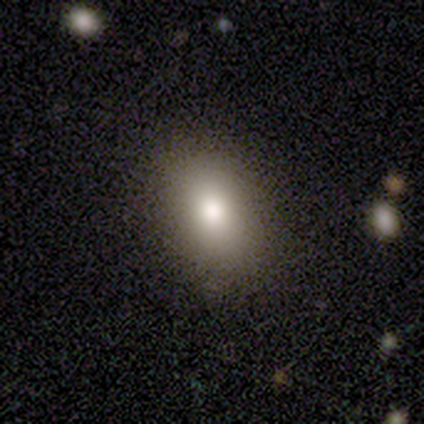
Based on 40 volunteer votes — smooth_or_featured: smooth (p=0.78) [alt: star or artifact p=0.15]
how_rounded: in between (p=0.77) [alt: round p=0.19]
merging: none (p=0.76) [alt: minor disturbance p=0.18]